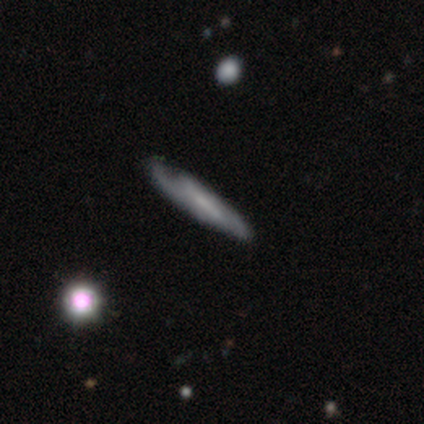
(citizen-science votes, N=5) Morphology: type=featured or disk (80%); edge-on=yes (75%); edge-on bulge=none (100%); merging=minor disturbance (60%).